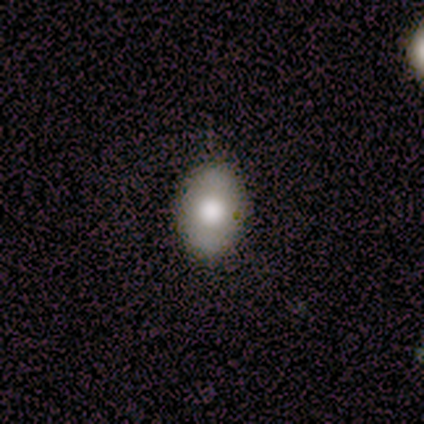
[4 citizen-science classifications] Smooth or featured?
  - smooth: 50% *
  - featured or disk: 25%
  - star or artifact: 25%
How rounded?
  - in between: 100% *
  - round: 0%
  - cigar-shaped: 0%
Merging?
  - none: 67% *
  - major disturbance: 33%
  - minor disturbance: 0%
  - merger: 0%